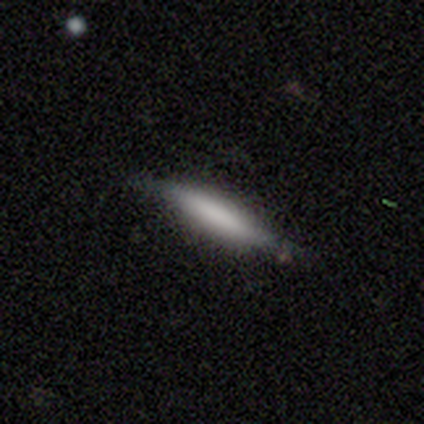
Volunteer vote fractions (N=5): Q: Smooth or featured?
A: smooth (60%); runner-up: featured or disk (40%)
Q: How rounded?
A: cigar-shaped (100%)
Q: Merging?
A: minor disturbance (80%); runner-up: none (20%)